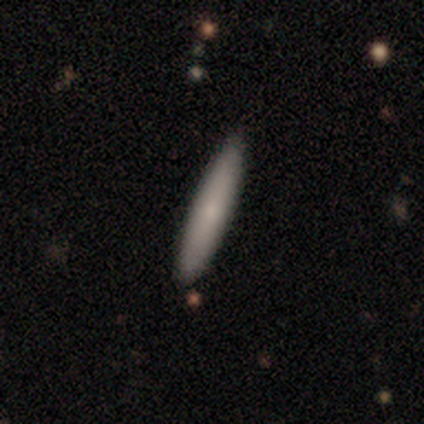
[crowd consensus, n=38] Overall: smooth (71%). How rounded: cigar-shaped (96%). Merging: none (62%).